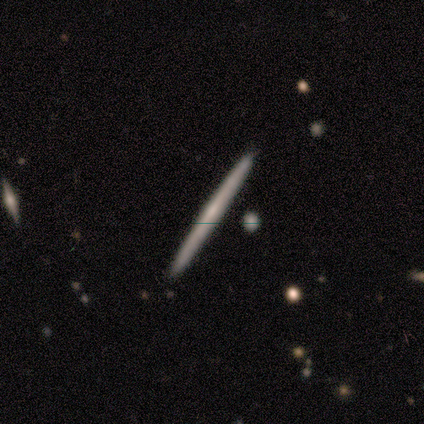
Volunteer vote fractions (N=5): Overall: featured or disk (60%; smooth 40%). Edge-on disk: yes (100%). Edge-on bulge: none (67%; rounded 33%). Merging: none (100%).